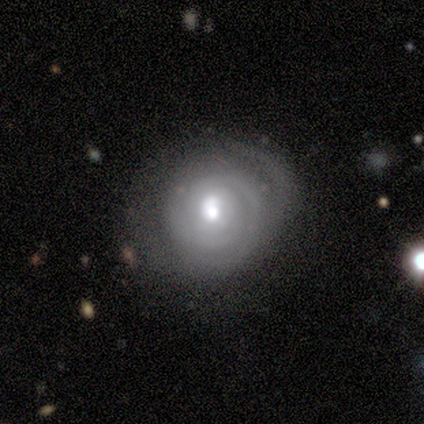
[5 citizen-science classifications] Overall: featured or disk (60%; smooth 40%). Edge-on disk: no (100%). Bar: no (67%; weak 33%). Spiral arms: yes (67%; no 33%). Spiral arm count: can't tell (100%). Spiral winding: tight (50%, tied with medium). Bulge size: moderate (67%; small 33%). Merging: none (40%, tied with minor disturbance).